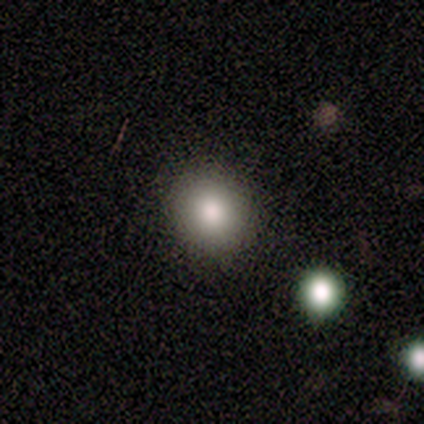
Smooth or featured?
  - smooth: 60% *
  - star or artifact: 40%
  - featured or disk: 0%
How rounded?
  - round: 100% *
  - in between: 0%
  - cigar-shaped: 0%
Merging?
  - none: 100% *
  - minor disturbance: 0%
  - major disturbance: 0%
  - merger: 0%